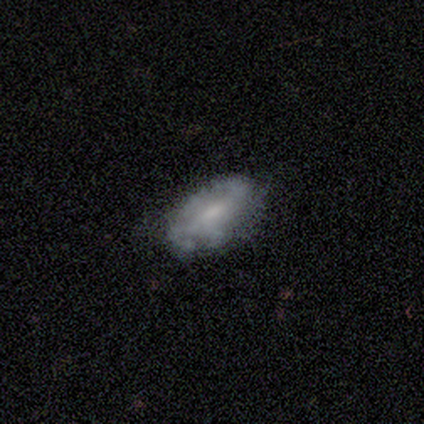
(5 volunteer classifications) A smooth galaxy with no disk features (60%) that is in between round and cigar-shaped (100%).

Vote fractions:
- Smooth or featured? smooth: 60% / featured or disk: 40% / star or artifact: 0%
- How rounded? in between: 100% / round: 0% / cigar-shaped: 0%
- Merging? none: 80% / minor disturbance: 20% / major disturbance: 0% / merger: 0%